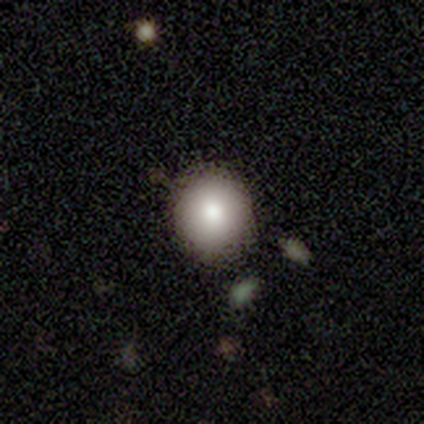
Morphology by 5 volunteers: smooth_or_featured: smooth (p=0.80) [alt: featured or disk p=0.20]
how_rounded: round (p=0.75) [alt: in between p=0.25]
merging: none (p=1.00)